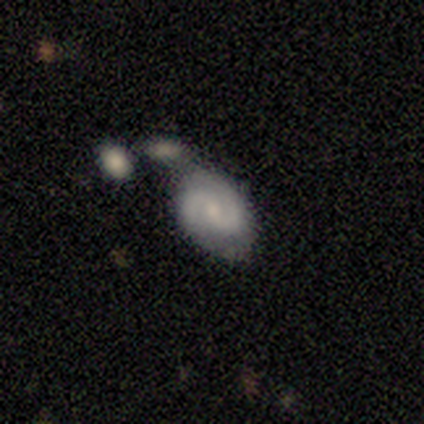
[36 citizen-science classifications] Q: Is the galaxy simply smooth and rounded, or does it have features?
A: featured or disk — 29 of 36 (81%).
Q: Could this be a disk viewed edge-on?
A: no — 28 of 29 (97%).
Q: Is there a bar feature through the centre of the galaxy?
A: no — 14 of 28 (50%).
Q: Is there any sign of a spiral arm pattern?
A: yes — 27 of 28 (96%).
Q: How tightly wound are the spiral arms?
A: medium — 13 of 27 (48%).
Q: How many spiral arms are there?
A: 2 — 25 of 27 (93%).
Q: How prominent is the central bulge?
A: small — 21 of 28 (75%).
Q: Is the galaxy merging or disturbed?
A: merger — 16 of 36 (44%).